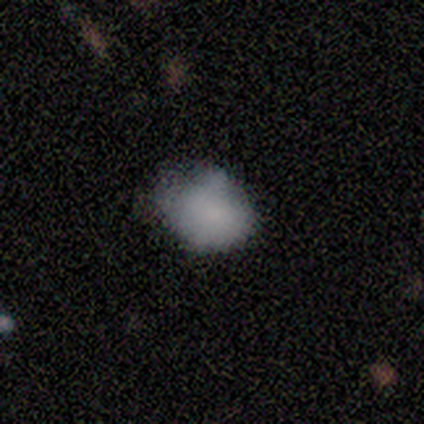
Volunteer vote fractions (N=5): Smooth or featured?
  - smooth: 100% *
  - featured or disk: 0%
  - star or artifact: 0%
How rounded?
  - in between: 80% *
  - round: 20%
  - cigar-shaped: 0%
Merging?
  - none: 60% *
  - minor disturbance: 40%
  - major disturbance: 0%
  - merger: 0%